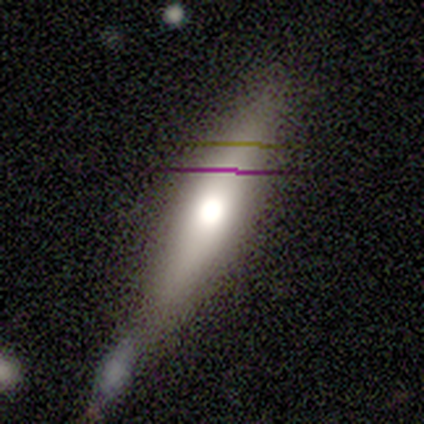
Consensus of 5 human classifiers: smooth_or_featured: featured or disk (p=0.60) [alt: smooth p=0.40]
disk_edge_on: yes (p=0.67) [alt: no p=0.33]
edge_on_bulge: rounded (p=1.00)
merging: none (p=0.60) [alt: minor disturbance p=0.20]